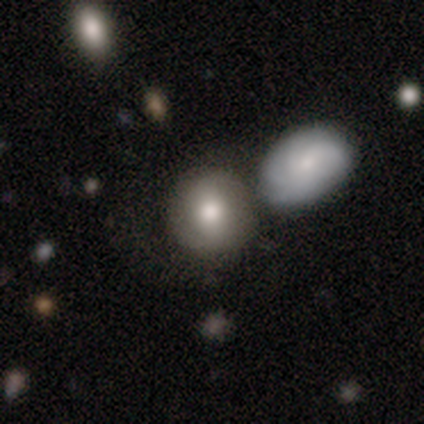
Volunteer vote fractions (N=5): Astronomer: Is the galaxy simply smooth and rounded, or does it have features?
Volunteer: smooth — 60%.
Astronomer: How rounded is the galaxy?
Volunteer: round — 100%.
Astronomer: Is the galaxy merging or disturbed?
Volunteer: none — 50%.